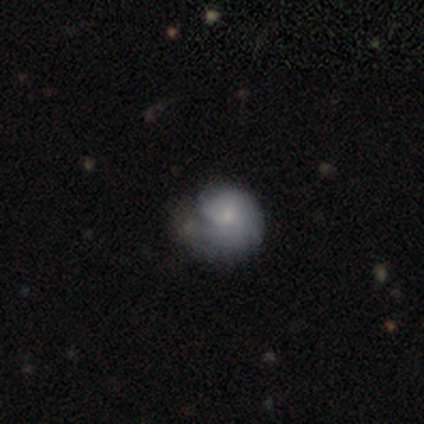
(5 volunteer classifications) Overall: featured or disk (60%; smooth 40%). Edge-on disk: no (100%). Bar: weak (67%; no 33%). Spiral arms: yes (67%; no 33%). Spiral arm count: 1 (50%, tied with 4). Spiral winding: tight (50%, tied with medium). Bulge size: small (100%). Merging: minor disturbance (40%; none 20%).